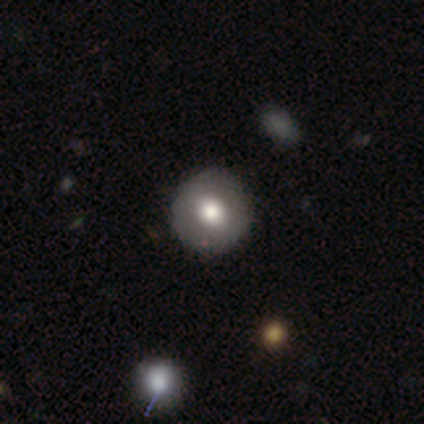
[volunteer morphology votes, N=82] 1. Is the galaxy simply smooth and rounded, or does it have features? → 67% smooth, 23% featured or disk, 10% star or artifact.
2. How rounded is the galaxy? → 93% round, 7% in between, 0% cigar-shaped.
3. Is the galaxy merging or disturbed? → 46% none, 5% minor disturbance, 5% merger, 0% major disturbance.